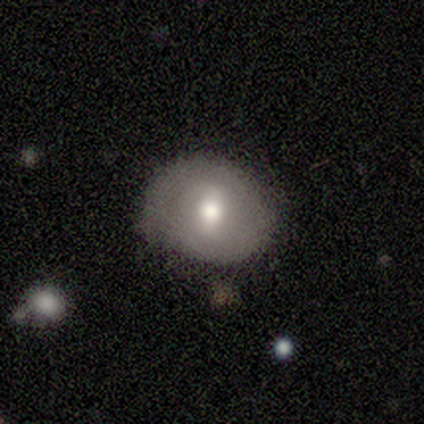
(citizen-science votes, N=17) smooth 53%, featured or disk 35%, star or artifact 12%. Down the decision tree: how rounded — round (78%); merging — none (80%).